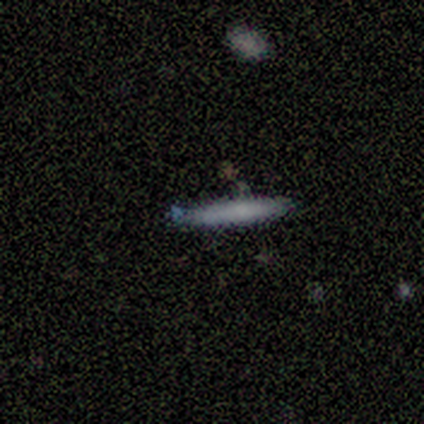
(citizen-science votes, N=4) Smooth or featured? smooth (75%)
How rounded? cigar-shaped (100%)
Merging? none (75%)